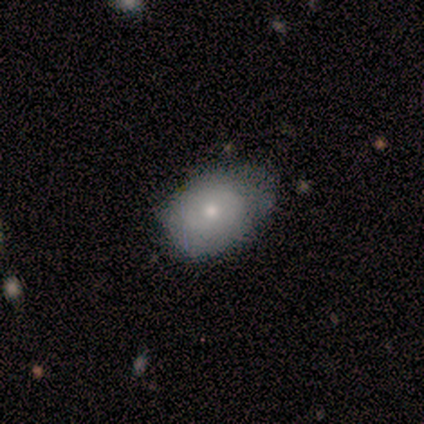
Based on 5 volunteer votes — smooth 60%, featured or disk 20%, star or artifact 20%. Down the decision tree: how rounded — in between (100%); merging — none (75%).